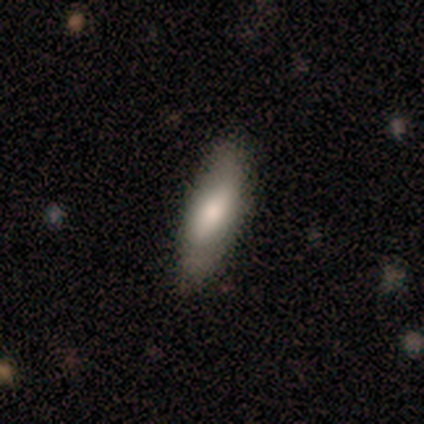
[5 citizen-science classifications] This is clearly a smooth galaxy (80%). How rounded: possibly in between (50%, tied with cigar-shaped). Merging: clearly none (80%).